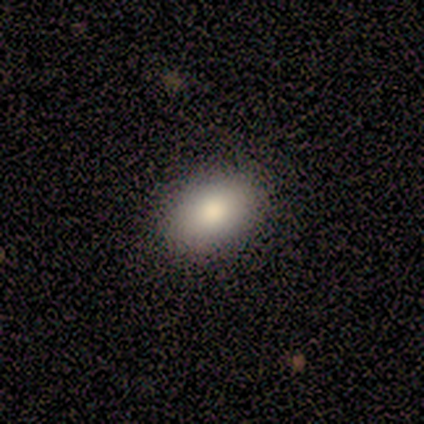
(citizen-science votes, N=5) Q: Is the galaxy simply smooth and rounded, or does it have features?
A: smooth — 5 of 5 (100%).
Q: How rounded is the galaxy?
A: in between — 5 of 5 (100%).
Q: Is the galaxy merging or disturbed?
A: none — 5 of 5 (100%).